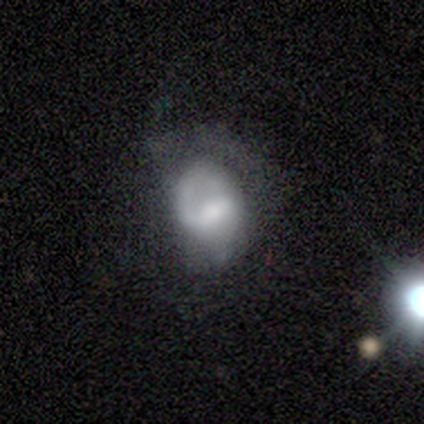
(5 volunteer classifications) smooth-or-featured: smooth: 40% (tied) | featured or disk: 40% (tied) | star or artifact: 20%
  how-rounded: round: 50% (tied) | in between: 50% (tied) | cigar-shaped: 0%
  merging: none: 50% (tied) | minor disturbance: 50% (tied) | major disturbance: 0% | merger: 0%